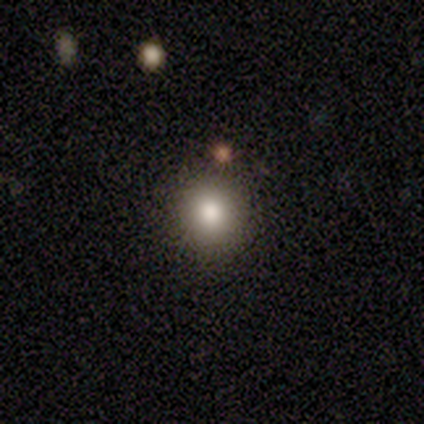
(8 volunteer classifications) This appears to be a smooth galaxy with no disk features (100%) that is round (100%). Merging: none (100%).